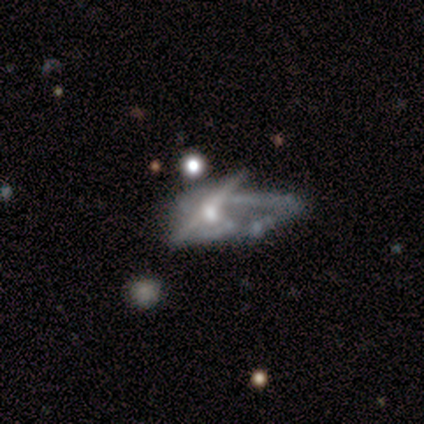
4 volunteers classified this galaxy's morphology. Smooth or featured? featured or disk (75%)
Edge-on disk? yes (67%)
Edge-on bulge? rounded (100%)
Merging? major disturbance (67%)